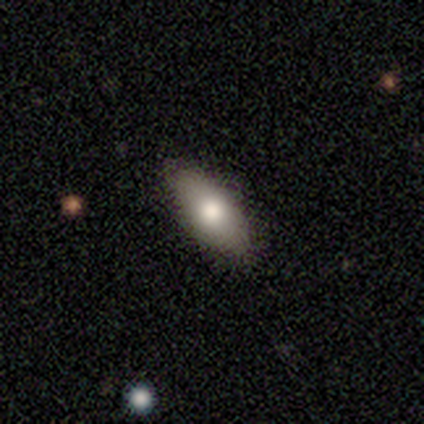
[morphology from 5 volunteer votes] Smooth or featured? 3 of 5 (60%) said smooth. How rounded? 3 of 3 (100%) said in between. Merging? 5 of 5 (100%) said none.